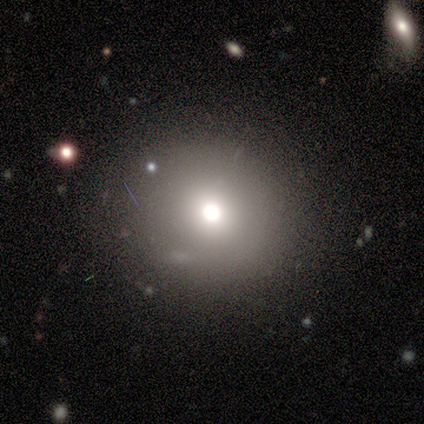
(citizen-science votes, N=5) smooth_or_featured: featured or disk (p=0.60) [alt: star or artifact p=0.40]
disk_edge_on: no (p=1.00)
bar: no (p=1.00)
has_spiral_arms: no (p=1.00)
bulge_size: moderate (p=1.00)
merging: none (p=1.00)